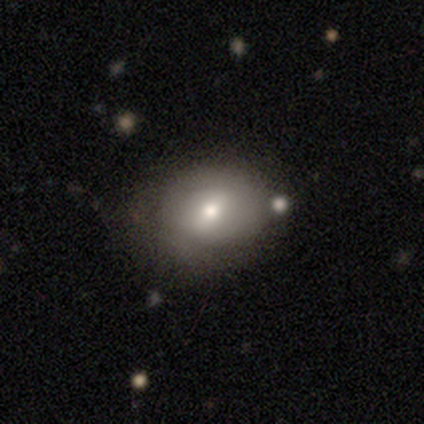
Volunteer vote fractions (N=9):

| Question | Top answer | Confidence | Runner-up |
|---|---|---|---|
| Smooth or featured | smooth | 56% | featured or disk (33%) |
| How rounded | in between | 60% | round (40%) |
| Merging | minor disturbance | 50% | none (38%) |